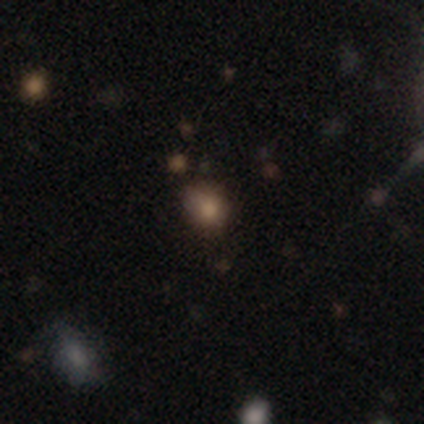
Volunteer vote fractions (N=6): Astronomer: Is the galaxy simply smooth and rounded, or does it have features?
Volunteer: smooth — 67%.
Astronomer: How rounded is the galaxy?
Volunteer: round — 75%.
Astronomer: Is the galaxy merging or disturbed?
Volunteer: none — 100%.